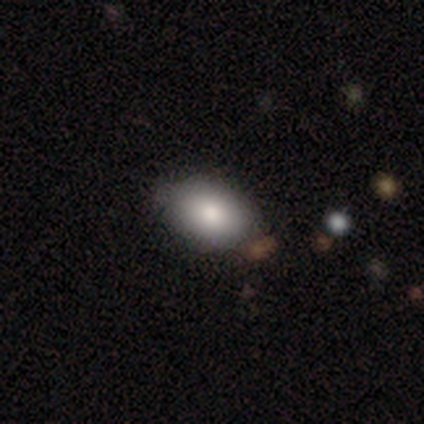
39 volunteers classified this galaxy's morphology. type=smooth (85%); roundness=in between (91%); merging=none (76%).